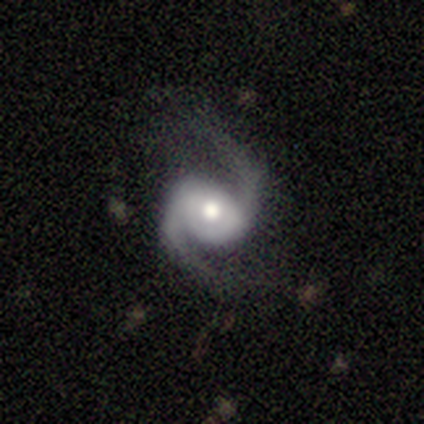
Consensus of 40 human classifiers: Smooth or featured? featured or disk (95%)
Edge-on disk? no (97%)
Bar? no (59%)
Spiral arms? yes (97%)
Spiral winding? medium (67%)
Spiral arm count? 2 (97%)
Bulge size? moderate (81%)
Merging? none (65%)